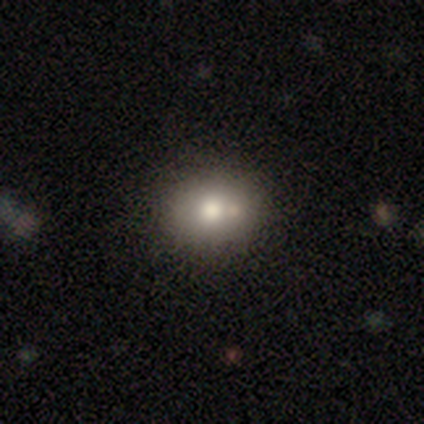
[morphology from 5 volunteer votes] Smooth or featured? smooth (60%)
How rounded? in between (67%)
Merging? none (60%)